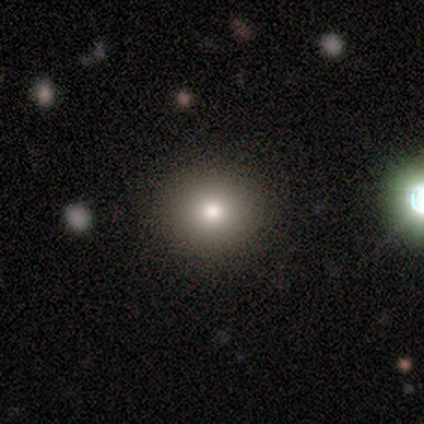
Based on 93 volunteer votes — Volunteers were most divided on "smooth or featured": smooth: 80%, star or artifact: 13%, featured or disk: 8%. More confident: merging — none (94%); how rounded — round (88%).